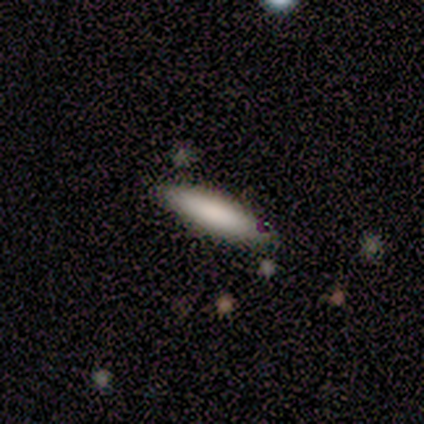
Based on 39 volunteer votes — This is likely a smooth galaxy (69%). How rounded: likely cigar-shaped (70%). Merging: clearly none (81%).